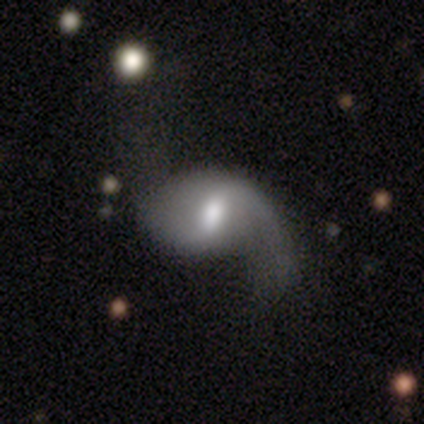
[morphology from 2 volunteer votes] A featured or disk galaxy (100%) with a weak bar (100%), 2 (100%) loose (100%) spiral arms (100%) and a large central bulge (50%, tied with moderate). Merging: none (50%, tied with major disturbance).